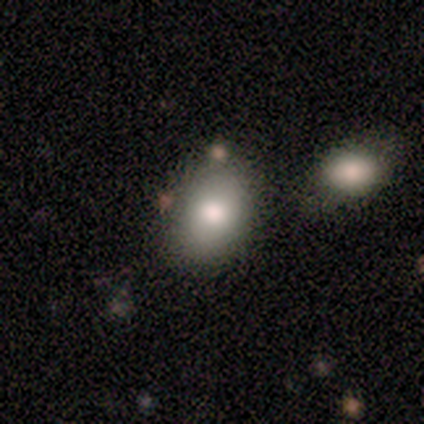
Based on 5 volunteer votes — Volunteers were most divided on "how rounded": in between: 75%, round: 25%, cigar-shaped: 0%. More confident: smooth or featured — smooth (80%); merging — none (80%).